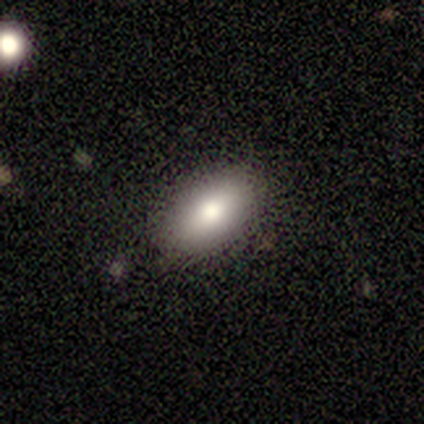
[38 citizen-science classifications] smooth-or-featured: smooth: 84% | featured or disk: 11% | star or artifact: 5%
  how-rounded: in between: 94% | cigar-shaped: 6% | round: 0%
  merging: none: 86% | minor disturbance: 11% | merger: 3% | major disturbance: 0%